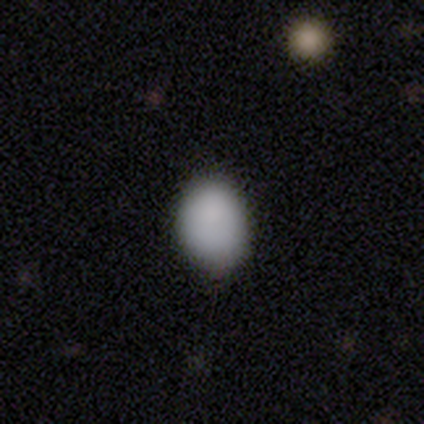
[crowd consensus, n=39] Volunteers were most divided on "how rounded": in between: 75%, round: 25%, cigar-shaped: 0%. More confident: smooth or featured — smooth (92%); merging — none (72%).